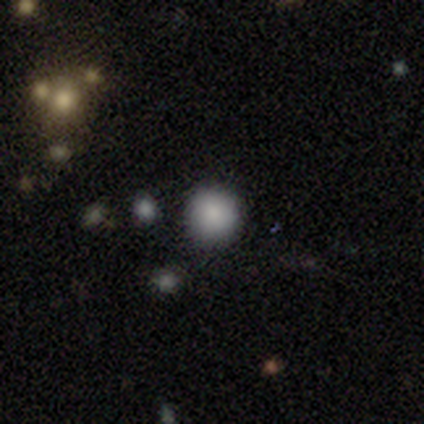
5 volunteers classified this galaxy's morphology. smooth 80%, star or artifact 20%, featured or disk 0%. Down the decision tree: how rounded — round (100%); merging — none (100%).